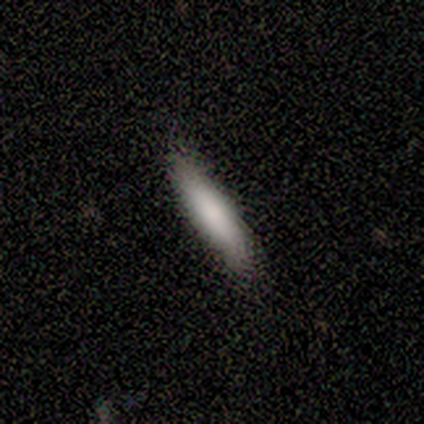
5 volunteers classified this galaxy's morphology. Smooth or featured? smooth (60%)
How rounded? cigar-shaped (67%)
Merging? none (75%)